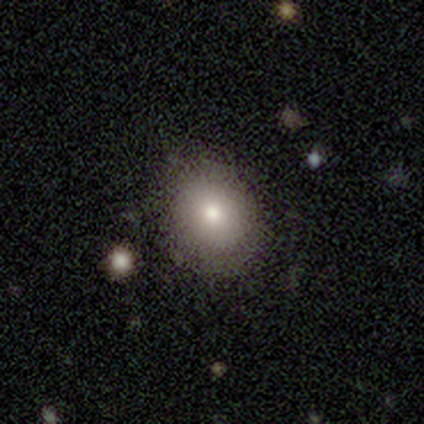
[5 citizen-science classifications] Volunteers were most divided on "how rounded": in between: 60%, round: 40%, cigar-shaped: 0%. More confident: smooth or featured — smooth (100%); merging — none (80%).